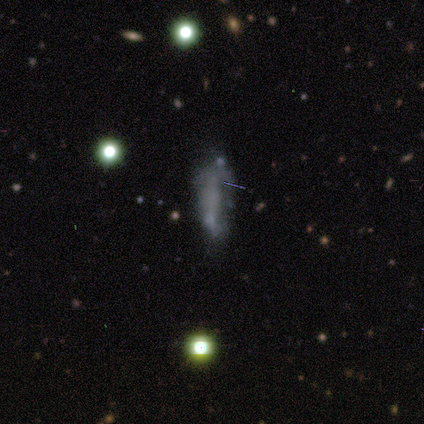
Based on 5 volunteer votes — smooth_or_featured: smooth (p=0.40) [tied with: featured or disk p=0.40]
how_rounded: in between (p=0.50) [tied with: cigar-shaped p=0.50]
merging: major disturbance (p=0.50) [alt: none p=0.25]